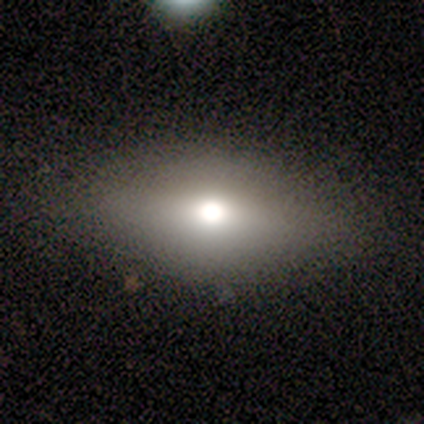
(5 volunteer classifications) Q: Smooth or featured?
A: smooth (80%); runner-up: featured or disk (20%)
Q: How rounded?
A: in between (100%)
Q: Merging?
A: none (100%)